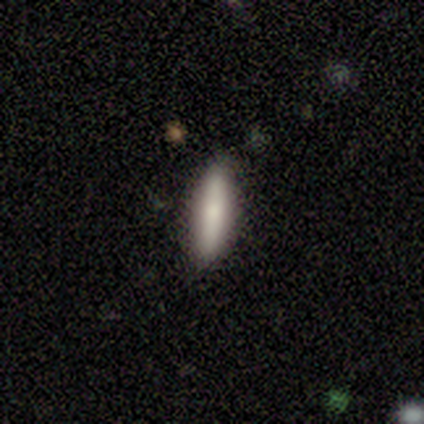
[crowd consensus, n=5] Smooth or featured? smooth (60%)
How rounded? cigar-shaped (100%)
Merging? none (100%)